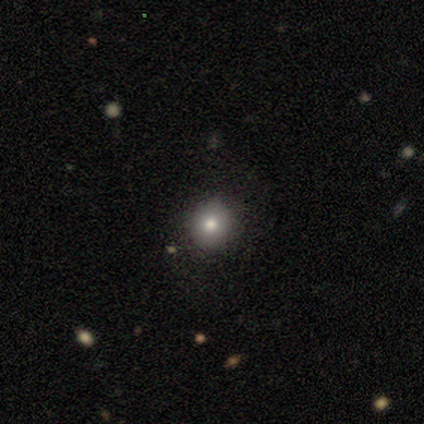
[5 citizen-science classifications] Volunteers were most divided on "smooth or featured": smooth: 80%, featured or disk: 20%, star or artifact: 0%. More confident: how rounded — round (100%); merging — none (80%).